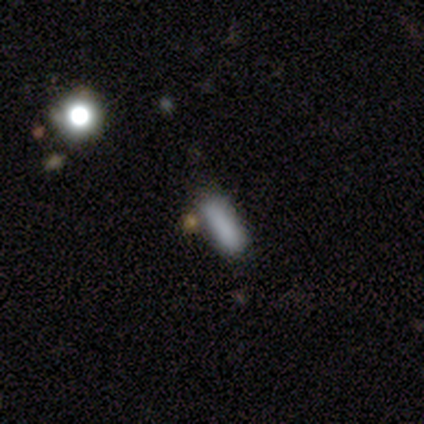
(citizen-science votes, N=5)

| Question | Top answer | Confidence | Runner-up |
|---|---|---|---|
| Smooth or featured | smooth | 100% | — |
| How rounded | cigar-shaped | 60% | in between (40%) |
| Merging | minor disturbance | 60% | none (40%) |